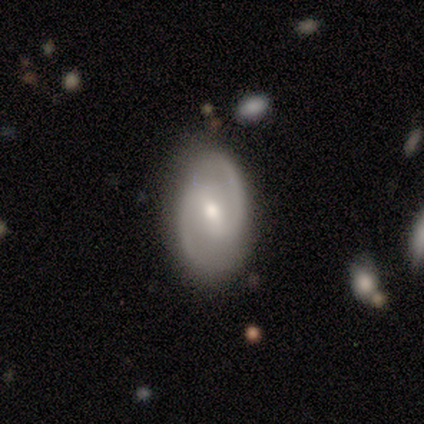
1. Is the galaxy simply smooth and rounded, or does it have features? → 100% featured or disk, 0% smooth, 0% star or artifact.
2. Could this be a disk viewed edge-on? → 100% no, 0% yes.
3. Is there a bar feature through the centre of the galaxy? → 60% weak, 40% strong, 0% no.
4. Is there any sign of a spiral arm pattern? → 80% yes, 20% no.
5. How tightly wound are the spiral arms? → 50% tight (tied), 50% medium (tied), 0% loose.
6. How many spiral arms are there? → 100% 2, 0% 1, 0% 3, 0% 4, 0% more than 4, 0% can't tell.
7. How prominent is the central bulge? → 80% moderate, 20% small, 0% dominant, 0% large, 0% none.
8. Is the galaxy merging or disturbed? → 60% none, 40% minor disturbance, 0% major disturbance, 0% merger.